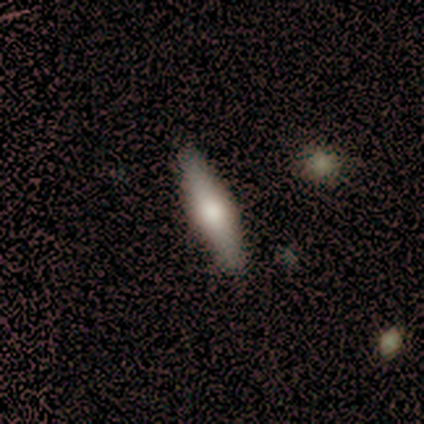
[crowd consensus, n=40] Smooth or featured? featured or disk (52%)
Edge-on disk? yes (86%)
Edge-on bulge? rounded (89%)
Merging? none (56%)